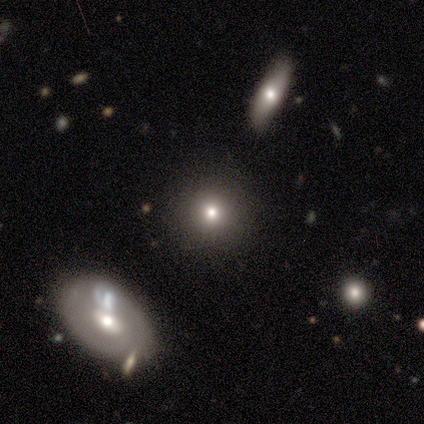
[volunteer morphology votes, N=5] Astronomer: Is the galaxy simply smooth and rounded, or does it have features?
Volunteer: smooth — 40%, tied with featured or disk at 40%.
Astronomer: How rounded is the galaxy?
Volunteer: round — 100%.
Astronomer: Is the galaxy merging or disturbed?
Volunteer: none — 100%.